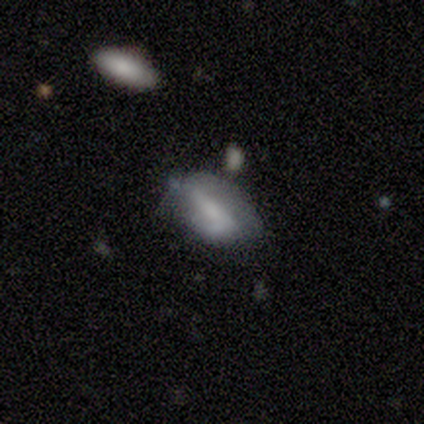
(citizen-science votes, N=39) featured or disk 54%, smooth 41%, star or artifact 5%. Down the decision tree: edge-on disk — no (86%); bar — strong (39%); spiral arms — yes (72%); spiral arm count — 2 (54%); spiral winding — loose (54%); bulge size — none (56%); merging — none (46%).